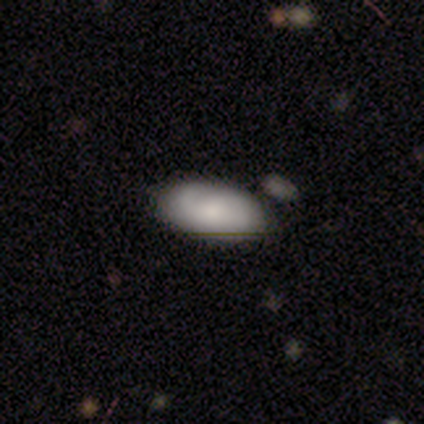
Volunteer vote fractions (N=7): Volunteers were most divided on "smooth or featured": featured or disk: 57%, smooth: 43%, star or artifact: 0%. More confident: bar — no (100%); spiral arms — yes (100%); edge-on disk — no (75%); merging — none (71%); spiral winding — medium (67%); spiral arm count — can't tell (67%); bulge size — moderate (67%).